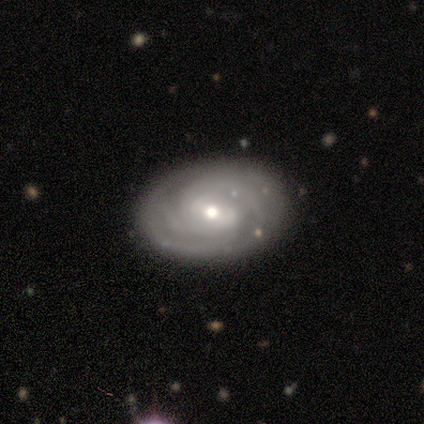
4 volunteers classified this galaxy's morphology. Smooth or featured: featured or disk — 100%
Edge-on disk: no — 75% (yes — 25%)
Bar: strong — 33% (tied with weak — 33%; no — 33%)
Spiral arms: yes — 100%
Spiral winding: tight — 67% (medium — 33%)
Spiral arm count: 3 — 67% (can't tell — 33%)
Bulge size: moderate — 67% (small — 33%)
Merging: none — 100%